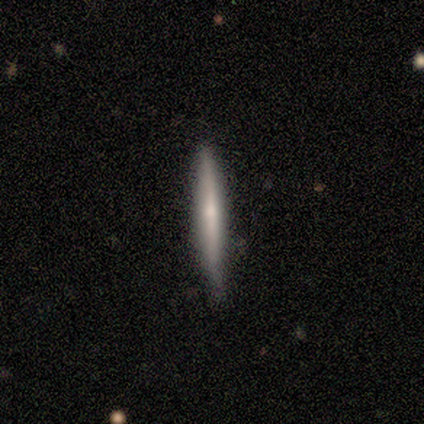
A featured or disk galaxy (80%) viewed edge-on (100%) with a rounded central bulge (75%). Merging: minor disturbance (60%).